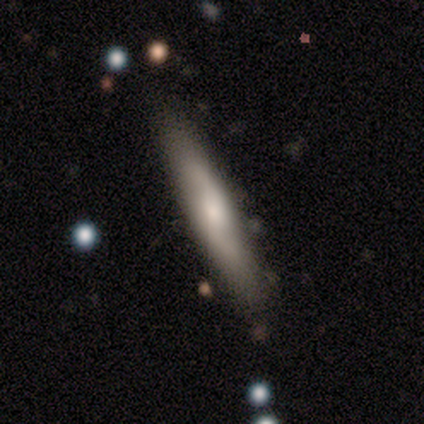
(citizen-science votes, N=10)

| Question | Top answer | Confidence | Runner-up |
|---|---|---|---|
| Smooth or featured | featured or disk | 70% | smooth (30%) |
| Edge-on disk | no | 86% | yes (14%) |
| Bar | weak | 50% | tied: no (50%) |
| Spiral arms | yes | 83% | no (17%) |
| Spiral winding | medium | 60% | loose (40%) |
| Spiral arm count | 2 | 100% | — |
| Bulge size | moderate | 50% | tied: small (50%) |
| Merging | none | 90% | minor disturbance (10%) |